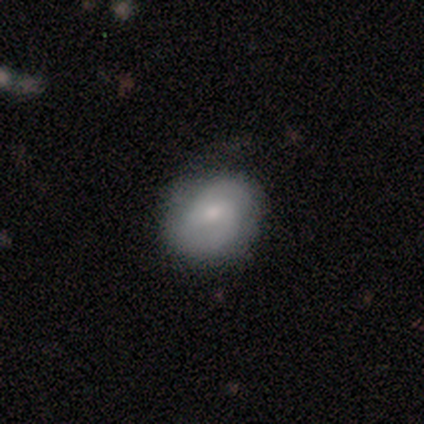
This is likely a featured or disk galaxy (67%). It is clearly not viewed edge-on (100%). Bar: likely weak (75%). Spiral arm pattern: clearly yes (100%). Spiral arm count: likely 2 (75%). Spiral winding: possibly medium (50%). Central bulge: likely moderate (75%). Merging: clearly none (100%).